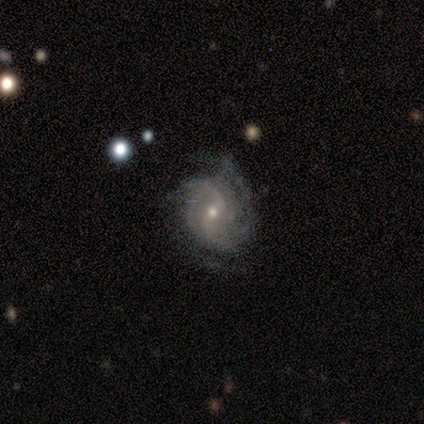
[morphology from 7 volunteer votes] Smooth or featured: featured or disk — 86% (smooth — 14%)
Edge-on disk: no — 100%
Bar: weak — 67% (strong — 17%)
Spiral arms: yes — 100%
Spiral winding: tight — 100%
Spiral arm count: can't tell — 67% (1 — 17%)
Bulge size: moderate — 67% (small — 33%)
Merging: none — 57% (minor disturbance — 43%)